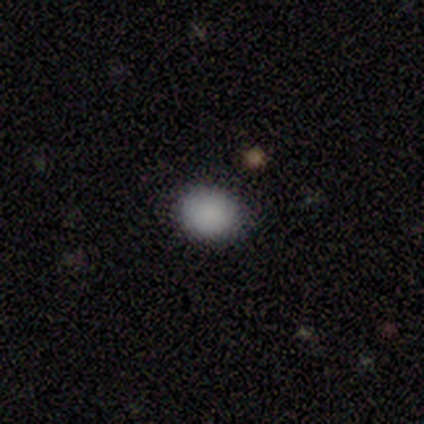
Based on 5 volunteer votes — Smooth or featured? smooth (100%)
How rounded? in between (60%)
Merging? none (100%)